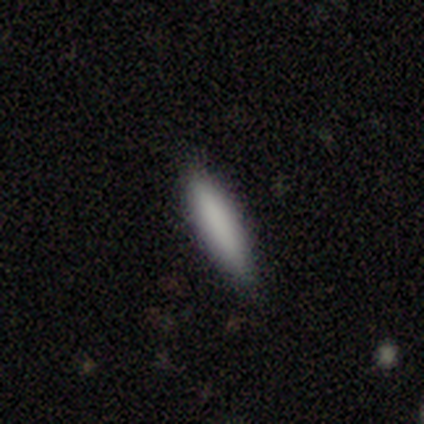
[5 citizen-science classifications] Smooth or featured? smooth (80%)
How rounded? cigar-shaped (100%)
Merging? none (100%)